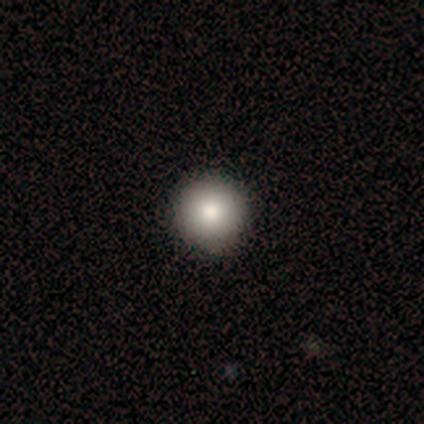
A smooth galaxy with no disk features (100%) that is round (100%). Merging: none (100%).